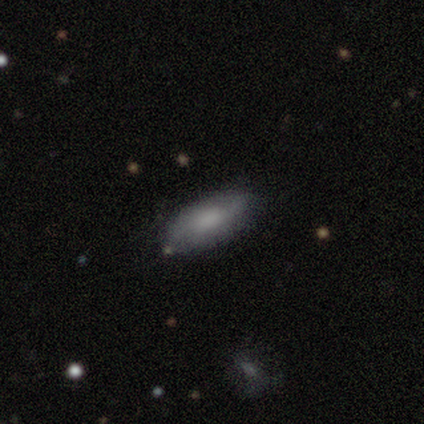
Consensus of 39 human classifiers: smooth-or-featured: smooth: 74% | featured or disk: 21% | star or artifact: 5%
  how-rounded: in between: 83% | cigar-shaped: 14% | round: 3%
  merging: none: 92% | minor disturbance: 5% | merger: 3% | major disturbance: 0%